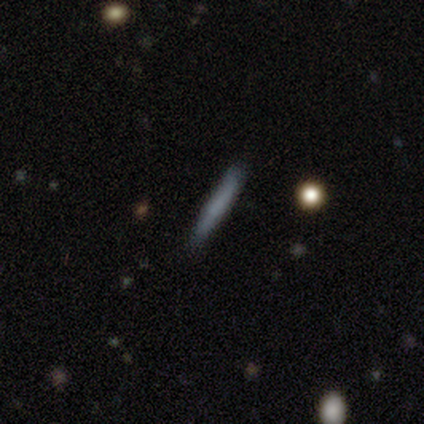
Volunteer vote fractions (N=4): Smooth or featured?
  - smooth: 75% *
  - featured or disk: 25%
  - star or artifact: 0%
How rounded?
  - cigar-shaped: 100% *
  - round: 0%
  - in between: 0%
Merging?
  - none: 100% *
  - minor disturbance: 0%
  - major disturbance: 0%
  - merger: 0%